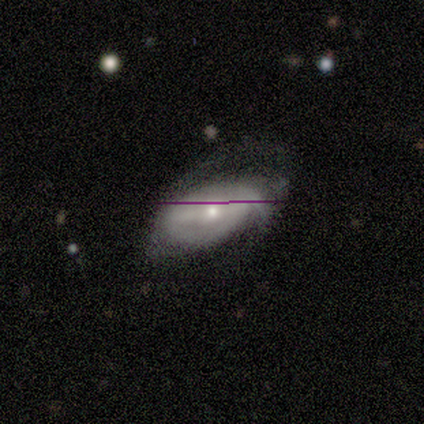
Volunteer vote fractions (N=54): This appears to be a featured or disk galaxy (80%) with a weak bar (46%), 2 (36%, tied with can't tell) tight (39%) spiral arms (80%) and a moderate central bulge (56%). Merging: none (43%).